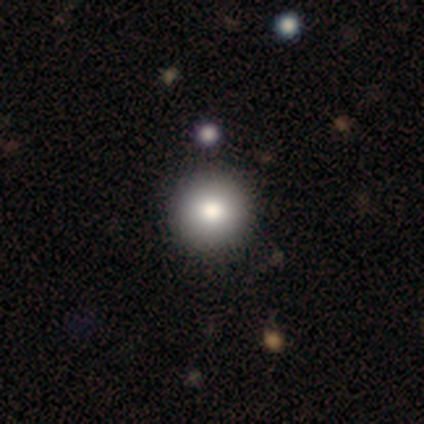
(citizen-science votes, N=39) A smooth galaxy with no disk features (85%) that is round (100%). Merging: none (64%).